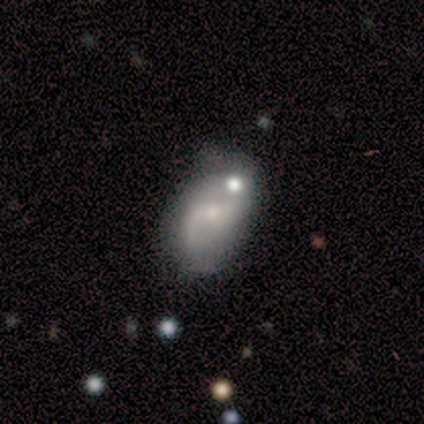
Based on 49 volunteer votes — Q: Smooth or featured?
A: featured or disk (78%); runner-up: smooth (12%)
Q: Edge-on disk?
A: no (100%)
Q: Bar?
A: no (50%); runner-up: weak (37%)
Q: Spiral arms?
A: yes (92%); runner-up: no (8%)
Q: Spiral winding?
A: loose (51%); runner-up: medium (37%)
Q: Spiral arm count?
A: 2 (77%); runner-up: 1 (9%)
Q: Bulge size?
A: small (50%); runner-up: moderate (39%)
Q: Merging?
A: none (48%); runner-up: minor disturbance (25%)